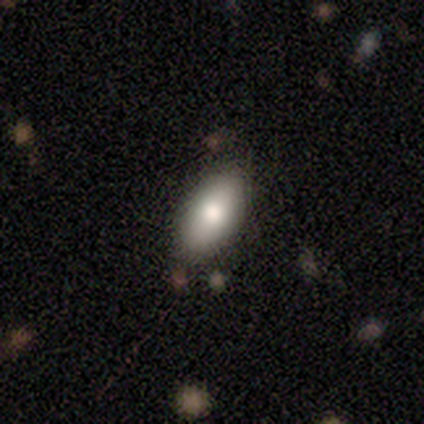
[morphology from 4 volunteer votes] Smooth or featured? smooth (75%)
How rounded? in between (100%)
Merging? none (75%)